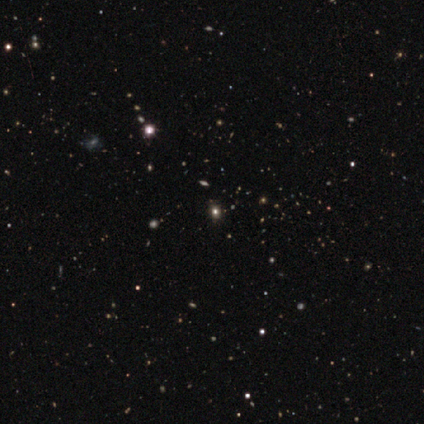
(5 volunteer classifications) Volunteers were most divided on "smooth or featured": star or artifact: 80%, smooth: 20%, featured or disk: 0%.